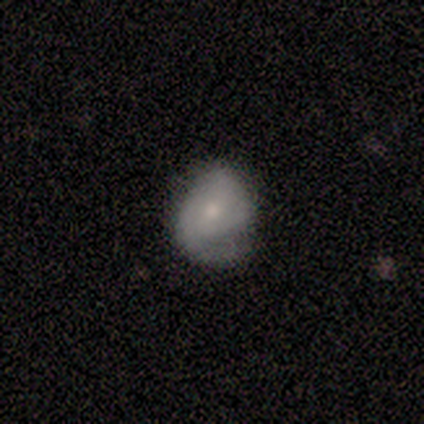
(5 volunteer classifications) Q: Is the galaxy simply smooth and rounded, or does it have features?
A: featured or disk — 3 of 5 (60%).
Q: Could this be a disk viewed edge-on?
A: no — 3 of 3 (100%).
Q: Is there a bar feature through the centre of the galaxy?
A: no — 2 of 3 (67%).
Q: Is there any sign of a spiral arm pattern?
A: yes — 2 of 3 (67%).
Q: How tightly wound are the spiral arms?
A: tight — 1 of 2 (50%, tied with medium).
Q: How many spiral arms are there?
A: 1 — 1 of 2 (50%, tied with 3).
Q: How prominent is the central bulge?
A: small — 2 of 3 (67%).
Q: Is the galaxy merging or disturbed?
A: minor disturbance — 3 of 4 (75%).